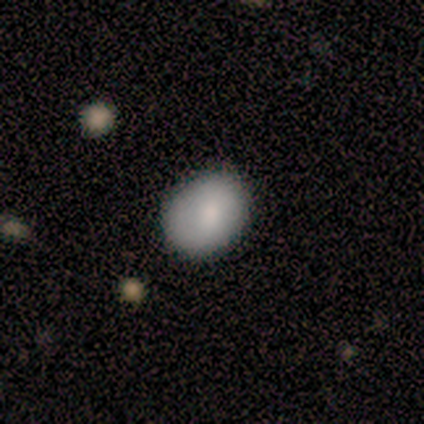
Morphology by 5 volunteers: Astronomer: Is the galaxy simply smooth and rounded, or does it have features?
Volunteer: smooth — 80%.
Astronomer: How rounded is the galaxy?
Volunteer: round — 75%.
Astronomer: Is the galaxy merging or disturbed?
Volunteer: none — 80%.